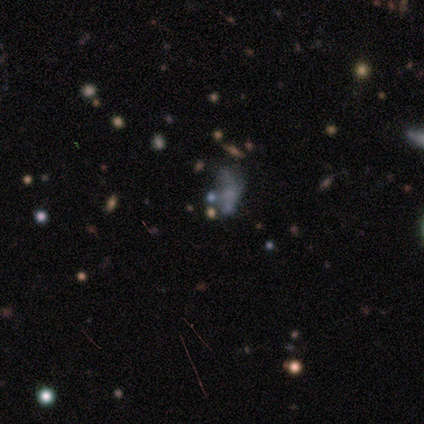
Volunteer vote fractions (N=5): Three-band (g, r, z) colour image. It shows a smooth galaxy with no disk features (60%) that is in between round and cigar-shaped (67%). Merging: minor disturbance (50%, tied with major disturbance).